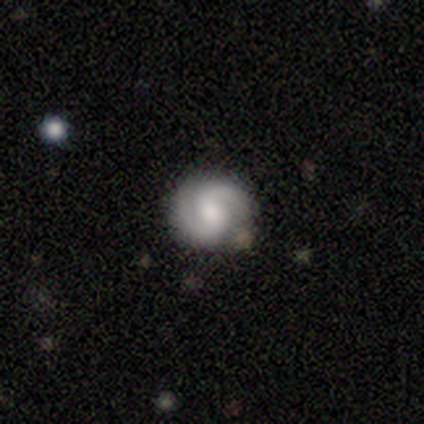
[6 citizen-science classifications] Smooth or featured: featured or disk — 83% (smooth — 17%)
Edge-on disk: no — 100%
Bar: strong — 40% (tied with no — 40%)
Spiral arms: yes — 100%
Spiral winding: medium — 60% (tight — 20%)
Spiral arm count: 2 — 100%
Bulge size: moderate — 60% (small — 40%)
Merging: none — 67% (minor disturbance — 17%)